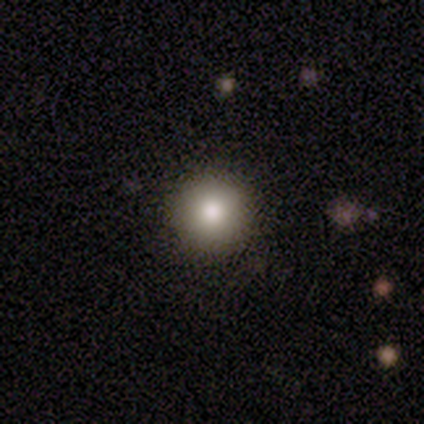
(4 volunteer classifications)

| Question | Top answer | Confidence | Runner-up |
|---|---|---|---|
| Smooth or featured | smooth | 75% | star or artifact (25%) |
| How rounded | round | 100% | — |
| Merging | none | 100% | — |